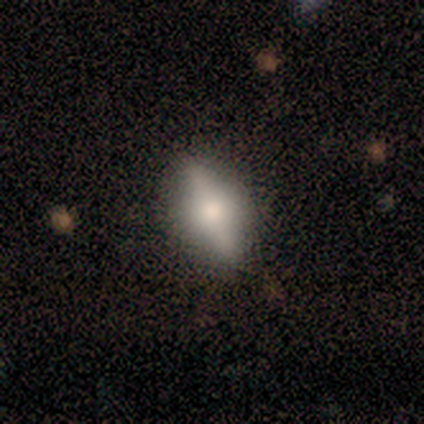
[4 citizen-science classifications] Overall: featured or disk (75%). Edge-on disk: yes (67%; no 33%). Edge-on bulge: rounded (100%). Merging: none (75%).